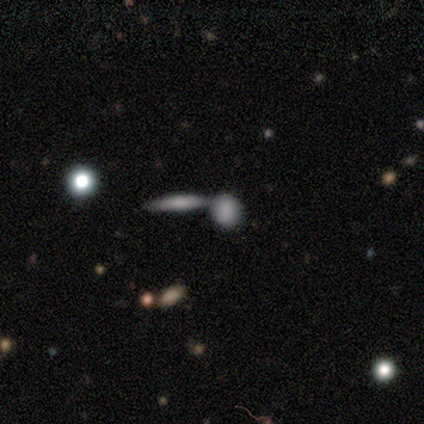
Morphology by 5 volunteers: Q: Smooth or featured?
A: smooth (80%); runner-up: featured or disk (20%)
Q: How rounded?
A: round (50%); tied with: cigar-shaped (50%)
Q: Merging?
A: merger (60%); runner-up: none (40%)